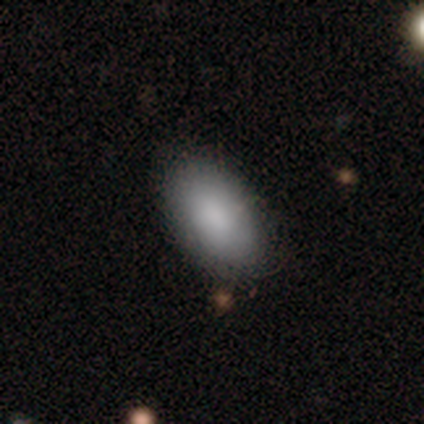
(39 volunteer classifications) This appears to be a smooth galaxy with no disk features (85%) that is in between round and cigar-shaped (97%). Merging: none (89%).